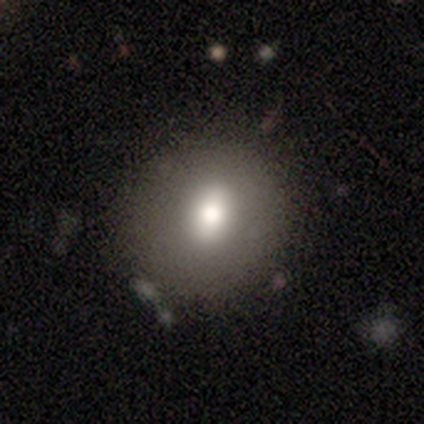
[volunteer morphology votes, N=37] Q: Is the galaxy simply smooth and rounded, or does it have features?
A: smooth — 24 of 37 (65%).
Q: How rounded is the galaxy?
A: round — 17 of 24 (71%).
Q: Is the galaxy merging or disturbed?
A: none — 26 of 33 (79%).